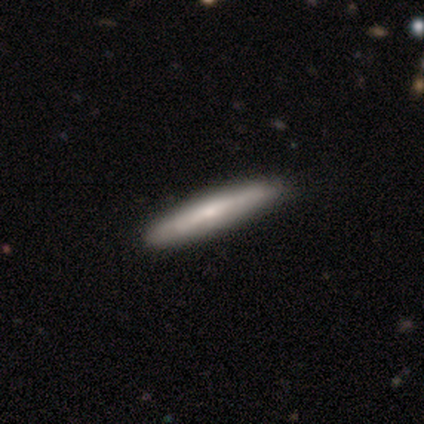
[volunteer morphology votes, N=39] This is possibly a featured or disk galaxy (51%). It is clearly viewed edge-on (90%). Edge-on bulge: marginally none (44%, tied with rounded). Merging: likely none (67%).